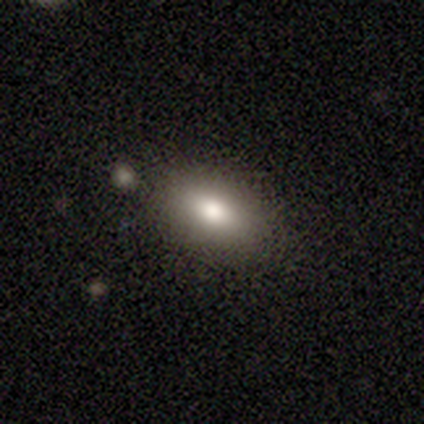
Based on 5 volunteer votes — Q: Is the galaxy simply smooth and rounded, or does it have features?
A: smooth — 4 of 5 (80%).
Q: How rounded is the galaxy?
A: in between — 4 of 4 (100%).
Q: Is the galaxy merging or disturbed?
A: none — 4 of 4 (100%).